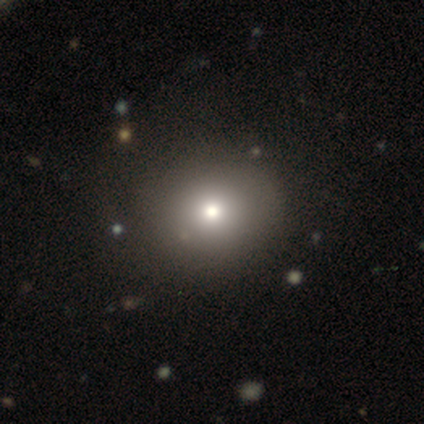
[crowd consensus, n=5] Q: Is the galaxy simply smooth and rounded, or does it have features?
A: smooth — 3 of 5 (60%).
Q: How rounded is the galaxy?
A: in between — 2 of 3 (67%).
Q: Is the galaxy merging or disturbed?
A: none — 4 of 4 (100%).